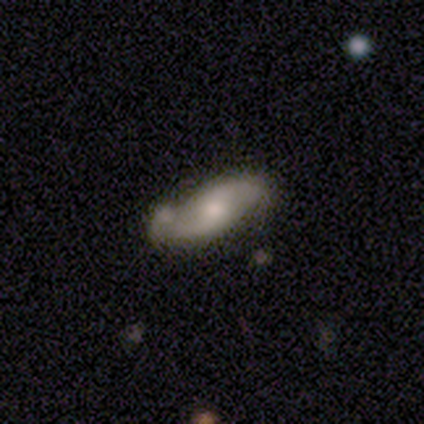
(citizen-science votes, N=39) Q: Smooth or featured?
A: featured or disk (69%); runner-up: smooth (26%)
Q: Edge-on disk?
A: no (89%); runner-up: yes (11%)
Q: Bar?
A: no (62%); runner-up: weak (33%)
Q: Spiral arms?
A: yes (92%); runner-up: no (8%)
Q: Spiral winding?
A: loose (55%); runner-up: medium (45%)
Q: Spiral arm count?
A: 2 (86%); runner-up: can't tell (14%)
Q: Bulge size?
A: moderate (50%); runner-up: small (46%)
Q: Merging?
A: none (65%); runner-up: minor disturbance (19%)